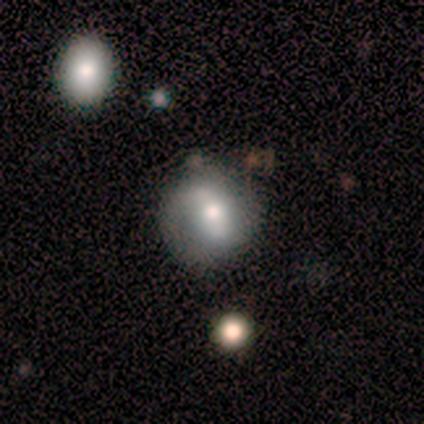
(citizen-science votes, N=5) Smooth or featured: smooth — 80% (star or artifact — 20%)
How rounded: round — 100%
Merging: none — 75% (minor disturbance — 25%)